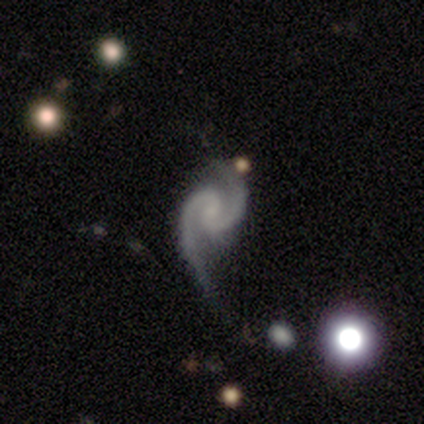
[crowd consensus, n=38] featured or disk 92%, star or artifact 5%, smooth 3%. Down the decision tree: edge-on disk — no (100%); bar — no (49%); spiral arms — yes (100%); spiral arm count — 2 (100%); spiral winding — medium (74%); bulge size — small (49%); merging — none (56%).